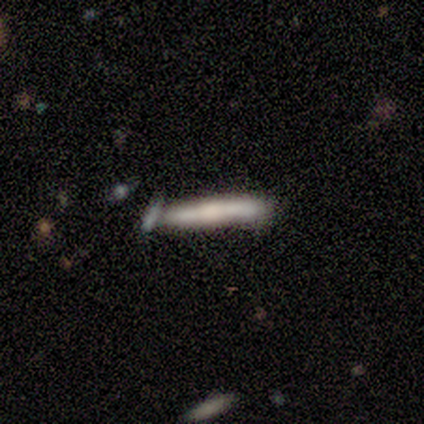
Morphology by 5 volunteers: This appears to be a smooth galaxy with no disk features (80%) that is cigar-shaped (100%). Merging: none (80%).